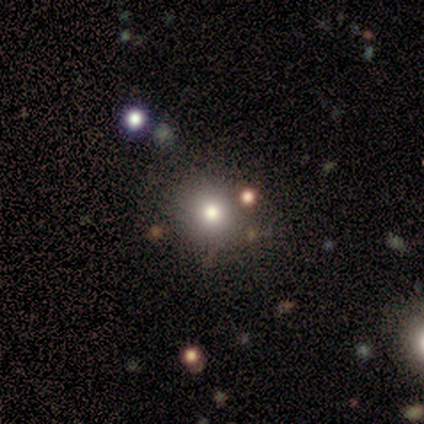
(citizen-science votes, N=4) This is clearly a smooth galaxy (100%). How rounded: clearly round (100%). Merging: clearly none (100%).